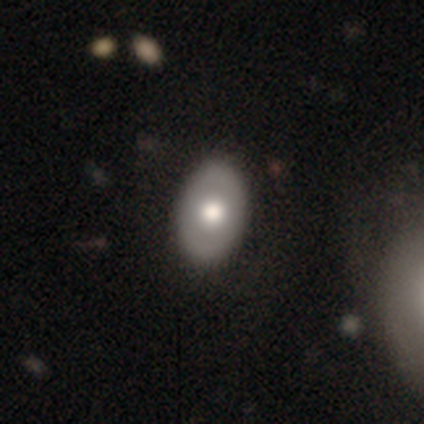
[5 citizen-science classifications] This appears to be a smooth galaxy with no disk features (60%) that is in between round and cigar-shaped (67%). Merging: none (60%).